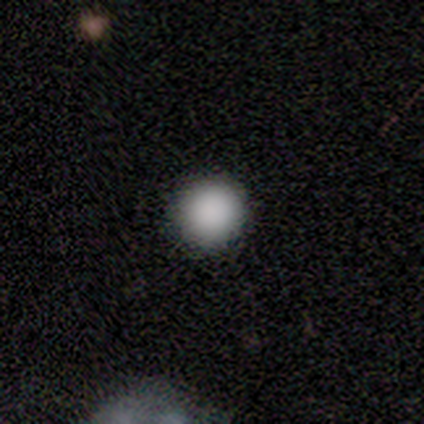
smooth_or_featured: smooth (p=1.00)
how_rounded: round (p=1.00)
merging: none (p=1.00)